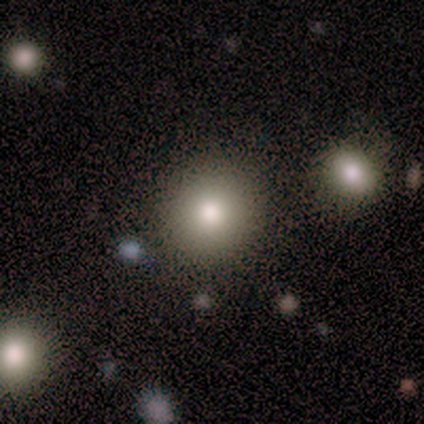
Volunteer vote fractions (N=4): smooth_or_featured: smooth (p=0.75) [alt: star or artifact p=0.25]
how_rounded: round (p=1.00)
merging: none (p=1.00)